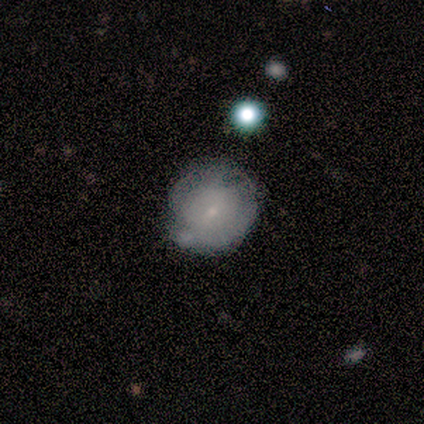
Smooth or featured? smooth (60%)
How rounded? round (67%)
Merging? minor disturbance (60%)